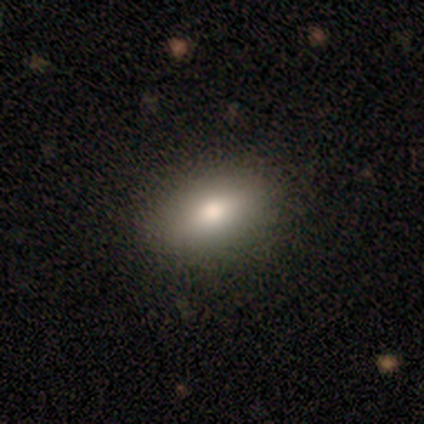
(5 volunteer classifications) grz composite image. It shows a smooth galaxy with no disk features (80%) that is in between round and cigar-shaped (100%). Merging: none (100%).